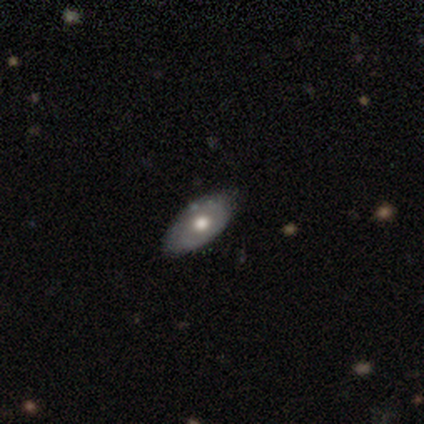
This is marginally a smooth galaxy (40%, tied with featured or disk). How rounded: clearly in between (100%). Merging: clearly none (100%).